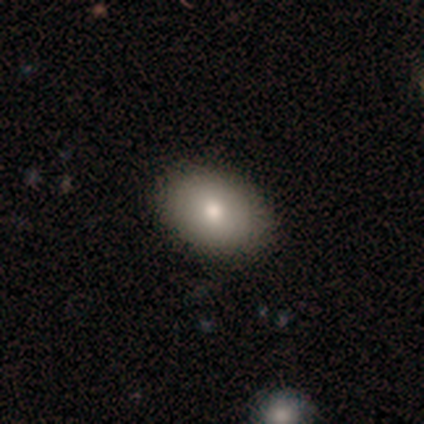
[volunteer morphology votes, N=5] Volunteers were most divided on "how rounded": in between: 75%, round: 25%, cigar-shaped: 0%. More confident: merging — none (100%); smooth or featured — smooth (80%).